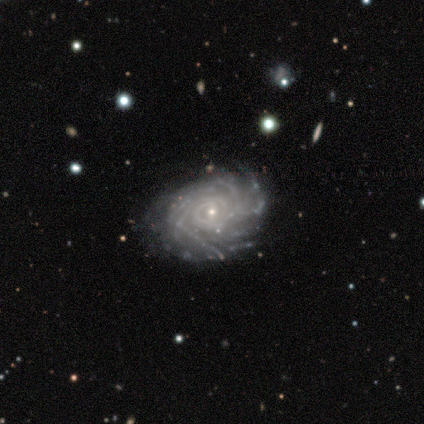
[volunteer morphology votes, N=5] Overall: featured or disk (100%). Edge-on disk: no (100%). Bar: no (80%). Spiral arms: yes (100%). Spiral arm count: more than 4 (60%; 4 20%). Spiral winding: tight (80%). Bulge size: small (100%). Merging: none (100%).